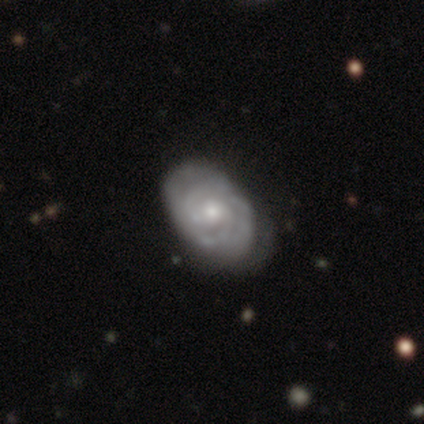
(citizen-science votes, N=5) Q: Smooth or featured?
A: featured or disk (80%); runner-up: star or artifact (20%)
Q: Edge-on disk?
A: no (75%); runner-up: yes (25%)
Q: Bar?
A: no (100%)
Q: Spiral arms?
A: yes (100%)
Q: Spiral winding?
A: tight (100%)
Q: Spiral arm count?
A: 3 (33%); tied with: 4 (33%); can't tell (33%)
Q: Bulge size?
A: moderate (67%); runner-up: small (33%)
Q: Merging?
A: none (50%); runner-up: minor disturbance (25%)